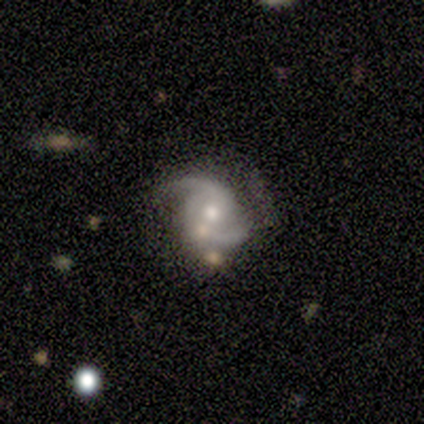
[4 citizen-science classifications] Smooth or featured: featured or disk — 75% (star or artifact — 25%)
Edge-on disk: no — 100%
Bar: no — 67% (weak — 33%)
Spiral arms: yes — 100%
Spiral winding: loose — 67% (medium — 33%)
Spiral arm count: 2 — 100%
Bulge size: small — 67% (moderate — 33%)
Merging: none — 100%